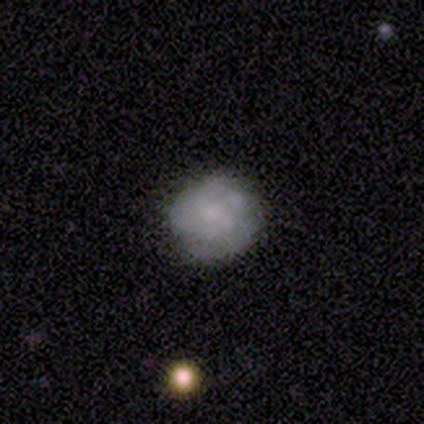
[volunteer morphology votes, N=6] Smooth or featured?
  - featured or disk: 50% *
  - smooth: 33%
  - star or artifact: 17%
Edge-on disk?
  - no: 100% *
  - yes: 0%
Bar?
  - no: 67% *
  - weak: 33%
  - strong: 0%
Spiral arms?
  - yes: 67% *
  - no: 33%
Spiral winding?
  - tight: 100% *
  - medium: 0%
  - loose: 0%
Spiral arm count?
  - 3: 100% *
  - 1: 0%
  - 2: 0%
  - 4: 0%
  - more than 4: 0%
  - can't tell: 0%
Bulge size?
  - none: 67% *
  - small: 33%
  - dominant: 0%
  - large: 0%
  - moderate: 0%
Merging?
  - none: 100% *
  - minor disturbance: 0%
  - major disturbance: 0%
  - merger: 0%